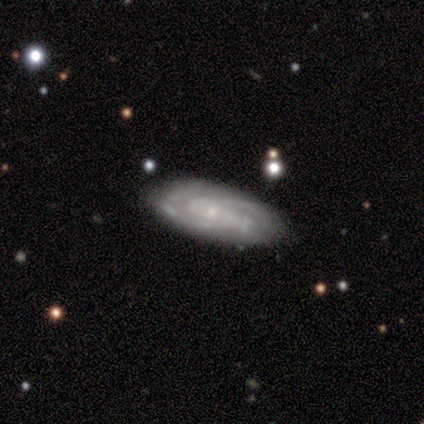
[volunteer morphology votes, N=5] Smooth or featured?
  - featured or disk: 80% *
  - smooth: 20%
  - star or artifact: 0%
Edge-on disk?
  - no: 100% *
  - yes: 0%
Bar?
  - no: 50% *
  - strong: 25%
  - weak: 25%
Spiral arms?
  - yes: 100% *
  - no: 0%
Spiral winding?
  - tight: 75% *
  - medium: 25%
  - loose: 0%
Spiral arm count?
  - 2: 75% *
  - can't tell: 25%
  - 1: 0%
  - 3: 0%
  - 4: 0%
  - more than 4: 0%
Bulge size?
  - small: 100% *
  - dominant: 0%
  - large: 0%
  - moderate: 0%
  - none: 0%
Merging?
  - none: 80% *
  - minor disturbance: 20%
  - major disturbance: 0%
  - merger: 0%